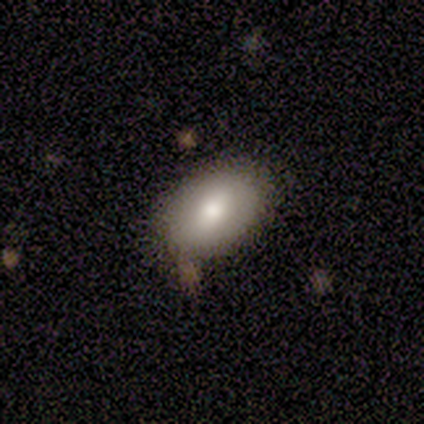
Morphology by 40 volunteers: Smooth or featured: smooth — 85% (featured or disk — 12%)
How rounded: in between — 88% (round — 12%)
Merging: none — 74% (minor disturbance — 13%)